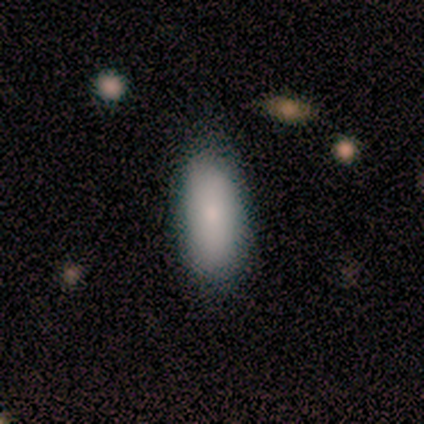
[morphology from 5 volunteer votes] This is likely a smooth galaxy (60%). How rounded: likely in between (67%). Merging: clearly none (100%).